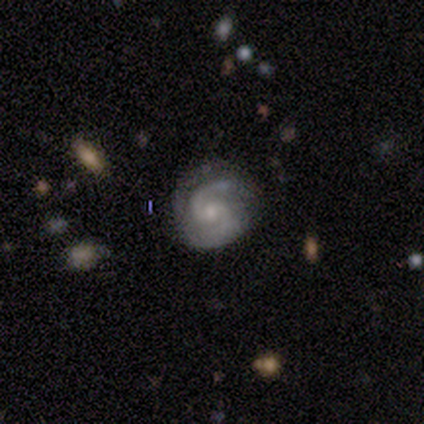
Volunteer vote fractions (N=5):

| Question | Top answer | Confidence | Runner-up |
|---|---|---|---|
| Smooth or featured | featured or disk | 100% | — |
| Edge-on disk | no | 100% | — |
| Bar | no | 100% | — |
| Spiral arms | yes | 100% | — |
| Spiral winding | tight | 60% | medium (40%) |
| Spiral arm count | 2 | 100% | — |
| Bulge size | small | 60% | moderate (40%) |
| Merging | none | 80% | minor disturbance (20%) |